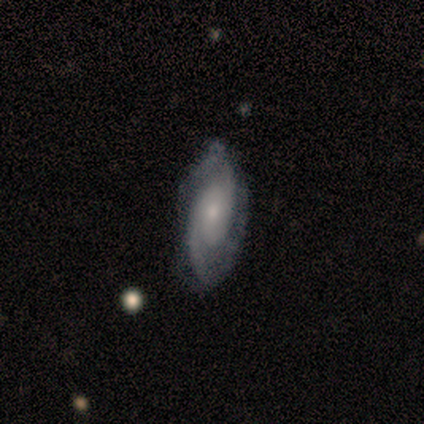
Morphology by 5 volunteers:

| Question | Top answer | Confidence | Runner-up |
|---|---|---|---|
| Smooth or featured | featured or disk | 80% | smooth (20%) |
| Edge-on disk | no | 75% | yes (25%) |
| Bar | no | 100% | — |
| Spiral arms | yes | 67% | no (33%) |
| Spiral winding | tight | 50% | tied: medium (50%) |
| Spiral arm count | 2 | 100% | — |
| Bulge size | small | 67% | moderate (33%) |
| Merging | none | 40% | tied: minor disturbance (40%) |